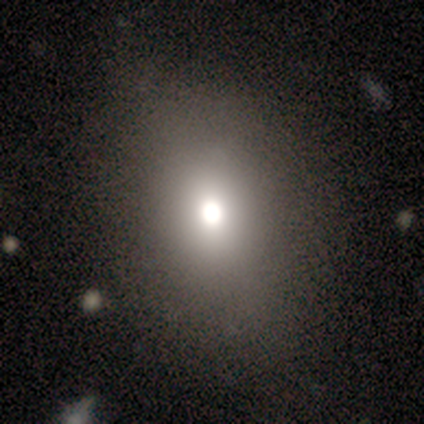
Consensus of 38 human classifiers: A smooth galaxy with no disk features (66%) that is in between round and cigar-shaped (60%). Merging: none (68%).